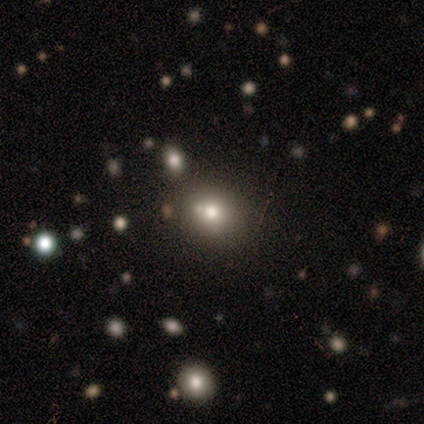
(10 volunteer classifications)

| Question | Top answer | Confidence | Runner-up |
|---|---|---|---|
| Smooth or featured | smooth | 50% | featured or disk (30%) |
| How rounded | in between | 80% | round (20%) |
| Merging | minor disturbance | 50% | none (25%) |